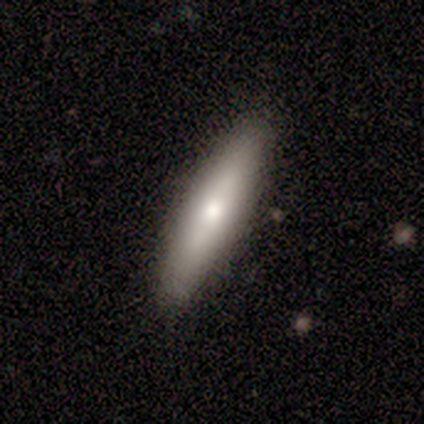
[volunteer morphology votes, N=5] type=smooth (80%); roundness=cigar-shaped (100%); merging=none (100%).